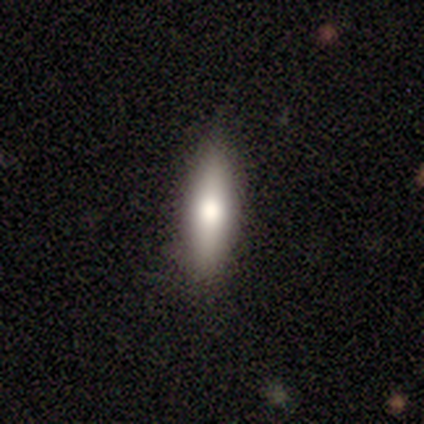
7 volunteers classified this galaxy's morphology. Smooth or featured? 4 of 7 (57%) said featured or disk. Edge-on disk? 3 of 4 (75%) said yes. Edge-on bulge? 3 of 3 (100%) said rounded. Merging? 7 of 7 (100%) said none.